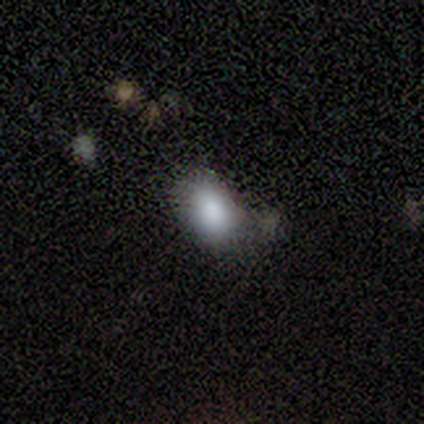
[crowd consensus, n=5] Smooth or featured? smooth (60%)
How rounded? in between (67%)
Merging? none (50%)